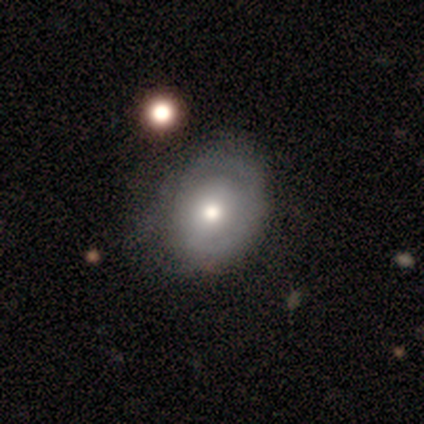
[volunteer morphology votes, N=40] This appears to be a featured or disk galaxy (52%) with no bar (86%), 1 (55%) tight (64%) spiral arms (52%) and a moderate central bulge (71%). Merging: none (42%).